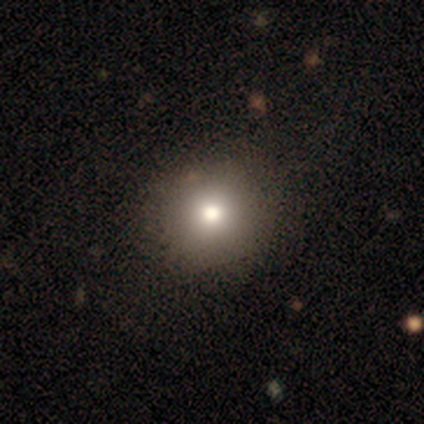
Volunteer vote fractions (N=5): smooth-or-featured: smooth: 60% | featured or disk: 20% | star or artifact: 20%
  how-rounded: round: 100% | in between: 0% | cigar-shaped: 0%
  merging: none: 100% | minor disturbance: 0% | major disturbance: 0% | merger: 0%